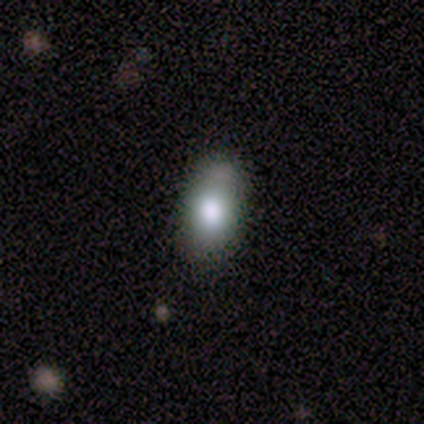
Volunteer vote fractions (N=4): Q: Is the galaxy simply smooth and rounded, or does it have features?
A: smooth — 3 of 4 (75%).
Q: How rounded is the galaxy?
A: in between — 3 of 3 (100%).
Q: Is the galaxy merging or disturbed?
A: minor disturbance — 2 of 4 (50%, tied with merger).